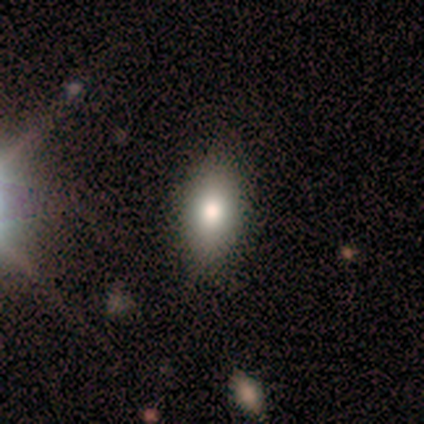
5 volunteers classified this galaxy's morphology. Q: Smooth or featured?
A: smooth (100%)
Q: How rounded?
A: in between (80%); runner-up: cigar-shaped (20%)
Q: Merging?
A: none (80%); runner-up: minor disturbance (20%)